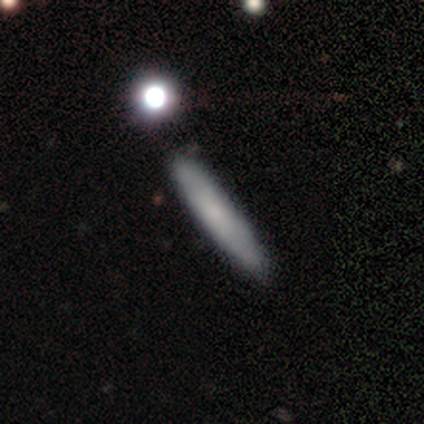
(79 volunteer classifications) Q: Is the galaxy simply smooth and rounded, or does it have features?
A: smooth — 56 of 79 (71%).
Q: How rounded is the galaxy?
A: cigar-shaped — 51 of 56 (91%).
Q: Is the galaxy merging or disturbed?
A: none — 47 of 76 (62%).